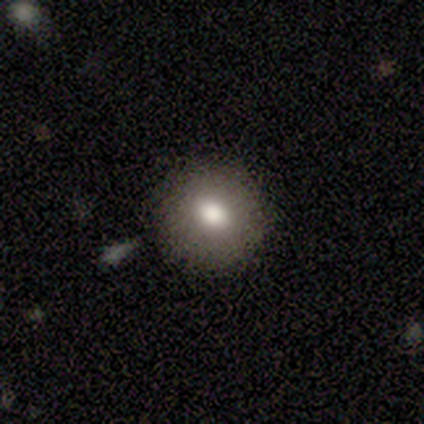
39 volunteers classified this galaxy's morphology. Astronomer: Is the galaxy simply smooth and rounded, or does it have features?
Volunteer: smooth — 69%.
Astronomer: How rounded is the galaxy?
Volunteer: round — 85%.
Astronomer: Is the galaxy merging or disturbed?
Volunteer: none — 89%.